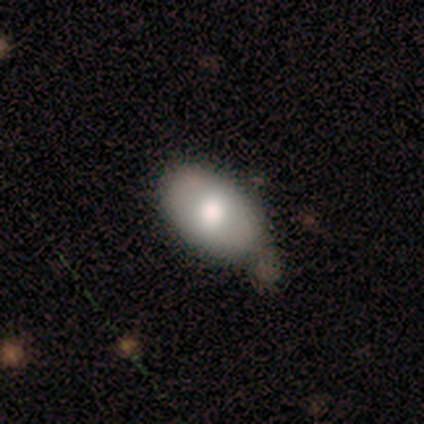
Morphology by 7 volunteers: Smooth or featured? 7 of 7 (100%) said smooth. How rounded? 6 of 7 (86%) said in between. Merging? 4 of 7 (57%) said none.